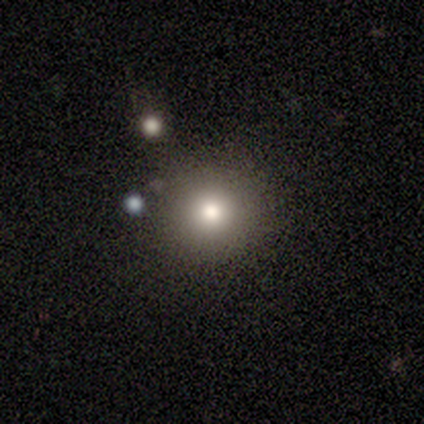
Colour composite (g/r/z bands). It shows a smooth galaxy with no disk features (60%) that is round (100%). Merging: none (100%).